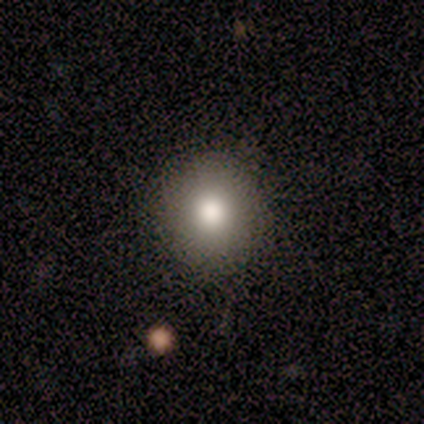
Morphology: type=smooth (71%); roundness=round (100%); merging=none (100%).